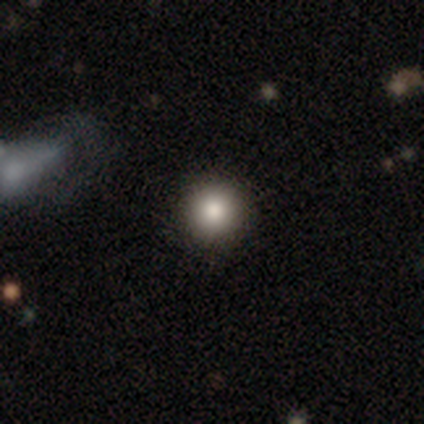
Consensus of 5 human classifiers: This appears to be a smooth galaxy with no disk features (60%) that is round (100%). Merging: none (100%).